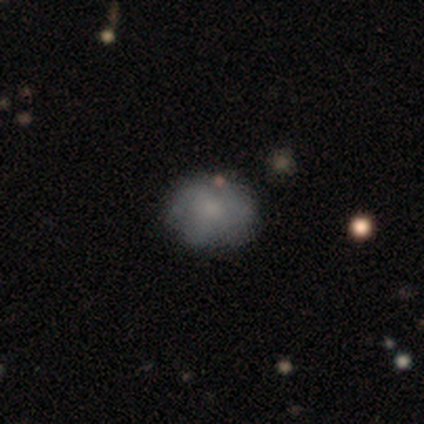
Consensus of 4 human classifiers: Volunteers were most divided on "spiral arms" (2-way tie): yes: 50%, no: 50%; "bulge size" (2-way tie): moderate: 50%, small: 50%, dominant: 0%, large: 0%, none: 0%. More confident: edge-on disk — no (100%); bar — no (100%); spiral winding — loose (100%); spiral arm count — can't tell (100%); merging — none (67%); smooth or featured — featured or disk (50%).